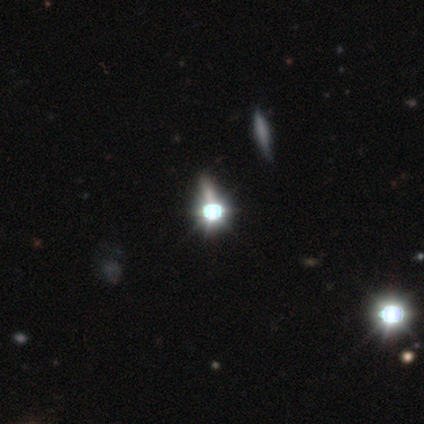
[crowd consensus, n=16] Morphology: type=star or artifact (88%).